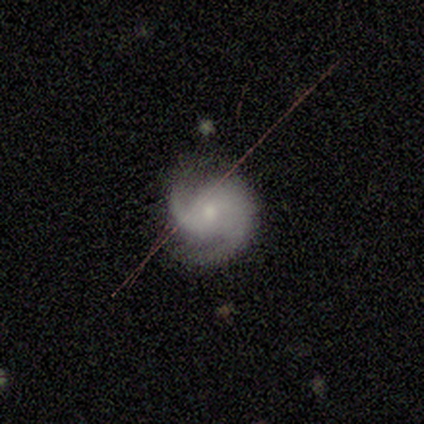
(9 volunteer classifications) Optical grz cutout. It shows a featured or disk galaxy (89%) with no bar (75%), 2 (100%) tight (38%, tied with medium) spiral arms (100%) and a small central bulge (50%). Merging: none (75%).